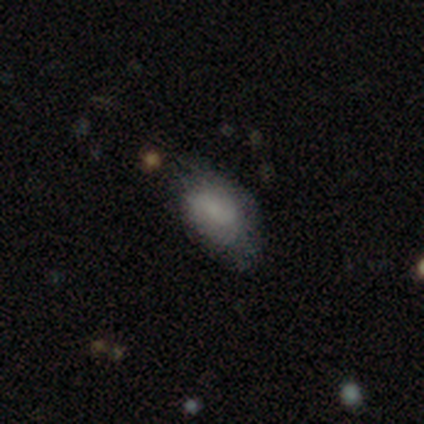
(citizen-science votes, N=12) smooth 92%, featured or disk 8%, star or artifact 0%. Down the decision tree: how rounded — in between (100%); merging — minor disturbance (67%).